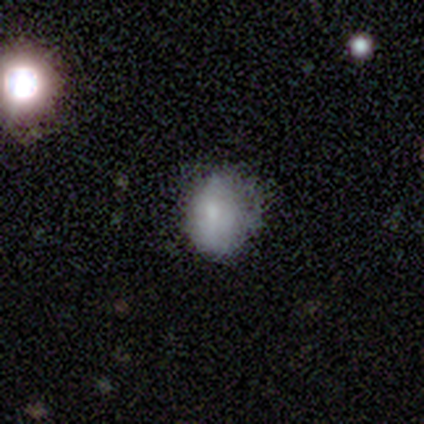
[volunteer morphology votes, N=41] type=smooth (78%); roundness=in between (62%); merging=none (63%).